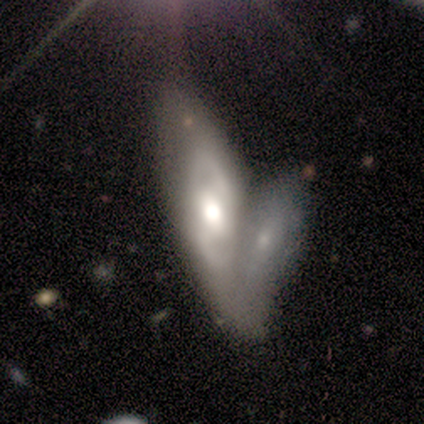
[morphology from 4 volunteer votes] Overall: featured or disk (75%). Edge-on disk: no (100%). Bar: weak (67%; no 33%). Spiral arms: yes (100%). Spiral arm count: 2 (67%; can't tell 33%). Spiral winding: medium (67%; tight 33%). Bulge size: moderate (67%; large 33%). Merging: merger (100%).